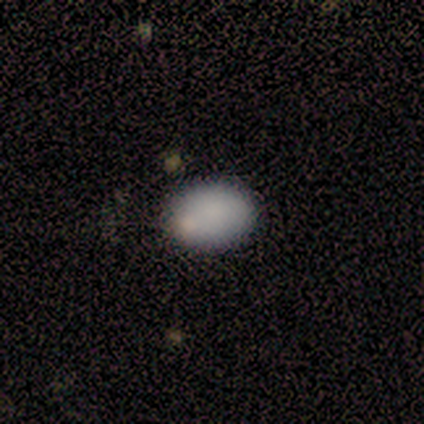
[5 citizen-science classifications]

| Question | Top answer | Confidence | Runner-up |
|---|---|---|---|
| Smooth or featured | smooth | 80% | star or artifact (20%) |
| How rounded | in between | 75% | round (25%) |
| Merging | none | 100% | — |